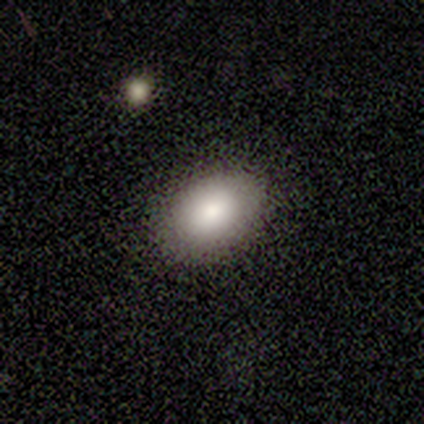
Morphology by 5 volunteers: A smooth galaxy with no disk features (60%) that is in between round and cigar-shaped (67%). Merging: none (100%).